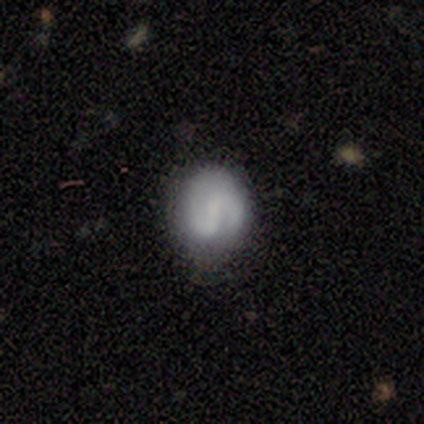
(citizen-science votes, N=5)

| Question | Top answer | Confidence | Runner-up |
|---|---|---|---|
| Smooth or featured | featured or disk | 80% | smooth (20%) |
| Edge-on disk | no | 100% | — |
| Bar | weak | 75% | strong (25%) |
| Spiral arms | yes | 100% | — |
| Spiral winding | medium | 50% | tight (25%) |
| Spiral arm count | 2 | 100% | — |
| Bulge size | small | 50% | tied: none (50%) |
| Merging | none | 60% | minor disturbance (40%) |